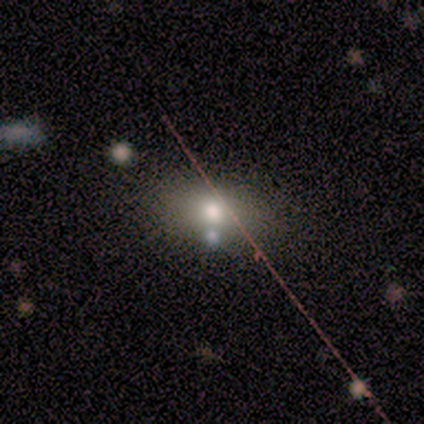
Overall: smooth (100%). How rounded: round (60%; in between 20%). Merging: none (80%).